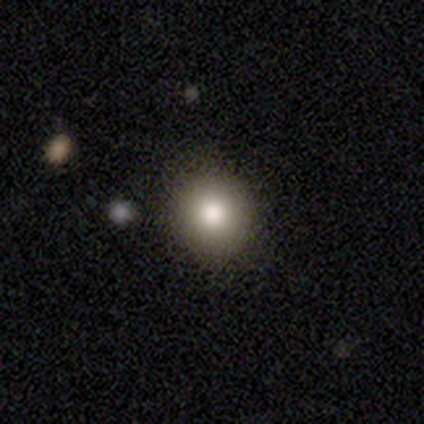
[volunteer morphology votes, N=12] Smooth or featured? smooth (67%)
How rounded? round (88%)
Merging? none (89%)